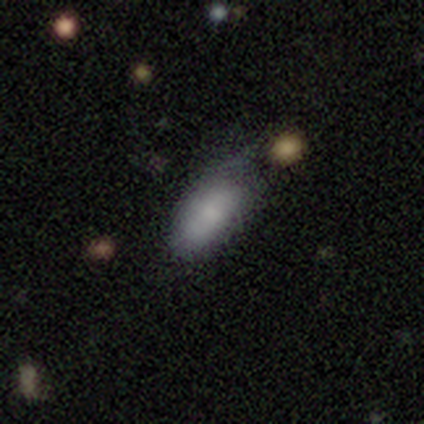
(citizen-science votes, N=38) smooth_or_featured: smooth (p=0.82) [alt: featured or disk p=0.18]
how_rounded: in between (p=0.87) [alt: cigar-shaped p=0.10]
merging: minor disturbance (p=0.50) [alt: none p=0.39]